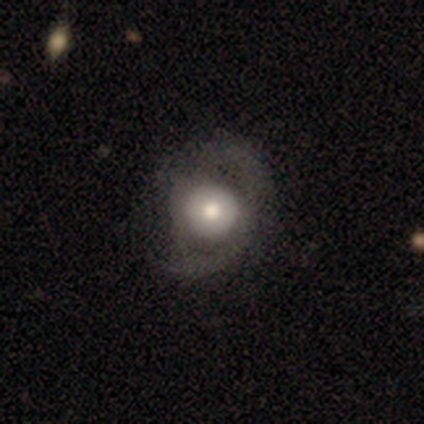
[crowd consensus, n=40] Smooth or featured? featured or disk (62%)
Edge-on disk? no (100%)
Bar? no (88%)
Spiral arms? yes (68%)
Spiral winding? medium (53%)
Spiral arm count? 2 (53%)
Bulge size? moderate (52%)
Merging? major disturbance (38%)